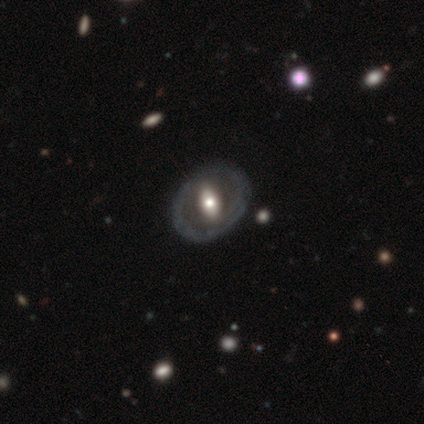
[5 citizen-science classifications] This appears to be a featured or disk galaxy (80%) with no bar (75%), no spiral arms (75%) and a large central bulge (50%, tied with small). Merging: none (100%).